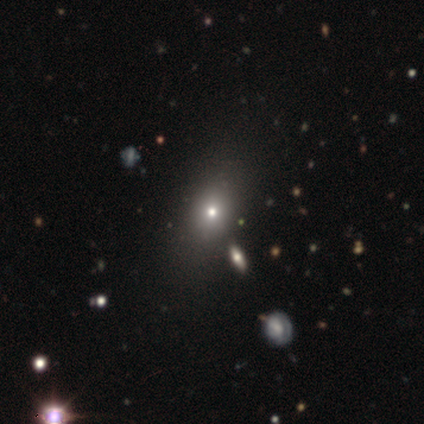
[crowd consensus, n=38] smooth_or_featured: smooth (p=0.55) [alt: star or artifact p=0.37]
how_rounded: in between (p=0.52) [alt: round p=0.38]
merging: none (p=0.88) [alt: minor disturbance p=0.08]